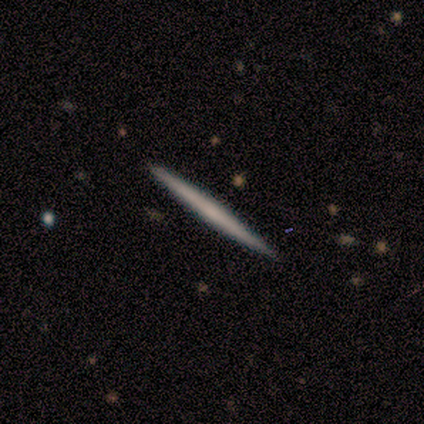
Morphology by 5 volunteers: smooth-or-featured: smooth: 80% | featured or disk: 20% | star or artifact: 0%
  how-rounded: cigar-shaped: 100% | round: 0% | in between: 0%
  merging: none: 100% | minor disturbance: 0% | major disturbance: 0% | merger: 0%